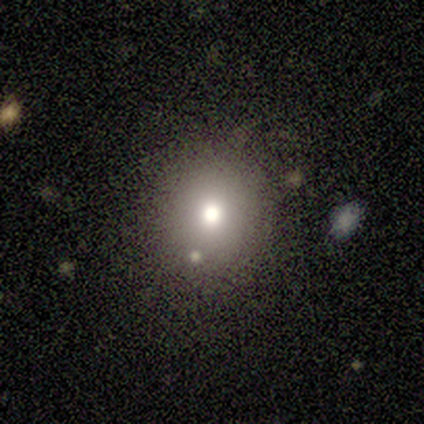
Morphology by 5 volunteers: Smooth or featured: smooth — 100%
How rounded: round — 80% (in between — 20%)
Merging: none — 100%